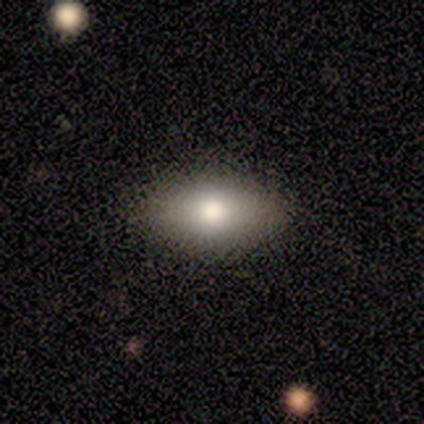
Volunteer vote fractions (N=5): A smooth galaxy with no disk features (100%) that is in between round and cigar-shaped (100%).

Vote fractions:
- Smooth or featured? smooth: 100% / featured or disk: 0% / star or artifact: 0%
- How rounded? in between: 100% / round: 0% / cigar-shaped: 0%
- Merging? none: 100% / minor disturbance: 0% / major disturbance: 0% / merger: 0%